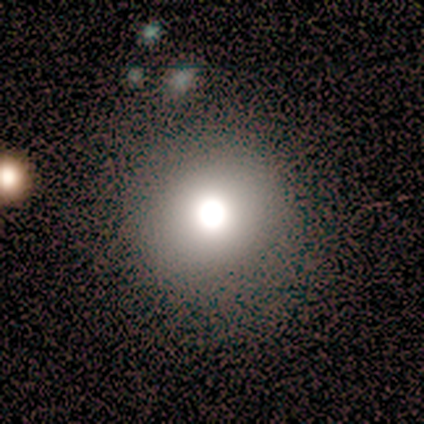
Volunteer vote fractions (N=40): Volunteers were most divided on "smooth or featured": smooth: 78%, featured or disk: 12%, star or artifact: 10%. More confident: how rounded — round (94%); merging — none (81%).